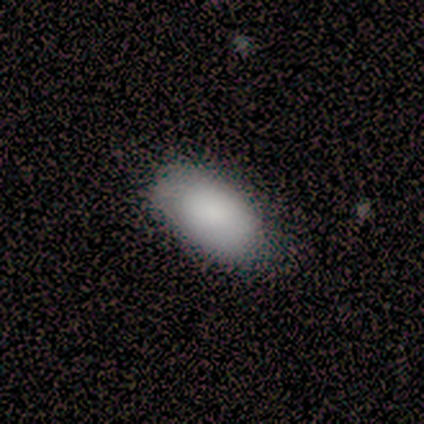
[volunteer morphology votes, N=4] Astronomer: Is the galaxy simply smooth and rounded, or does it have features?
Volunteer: smooth — 75%.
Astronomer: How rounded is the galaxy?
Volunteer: in between — 100%.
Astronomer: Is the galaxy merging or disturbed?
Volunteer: none — 75%.